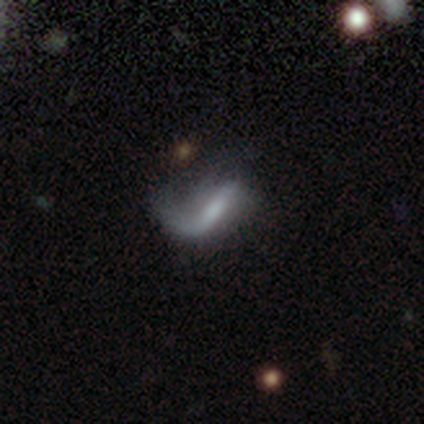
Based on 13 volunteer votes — This is likely a featured or disk galaxy (77%). It is likely not viewed edge-on (70%). Bar: marginally strong (43%, tied with no). Spiral arm pattern: clearly yes (86%). Spiral arm count: likely 1 (67%). Spiral winding: clearly loose (83%). Central bulge: possibly none (57%). Merging: likely major disturbance (67%).